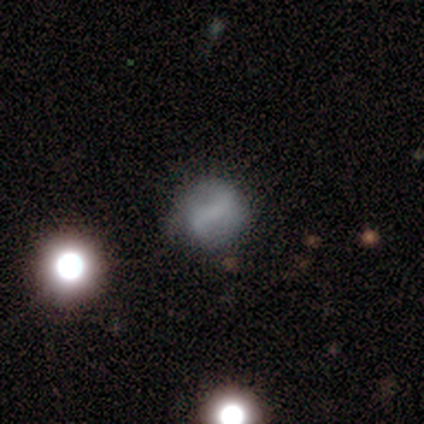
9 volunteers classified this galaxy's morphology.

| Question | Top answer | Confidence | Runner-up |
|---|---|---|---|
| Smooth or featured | featured or disk | 67% | smooth (33%) |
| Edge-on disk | no | 100% | — |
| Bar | strong | 33% | tied: weak (33%), no (33%) |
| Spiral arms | yes | 83% | no (17%) |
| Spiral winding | medium | 60% | loose (40%) |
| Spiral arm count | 2 | 100% | — |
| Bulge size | small | 50% | tied: none (50%) |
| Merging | none | 89% | minor disturbance (11%) |